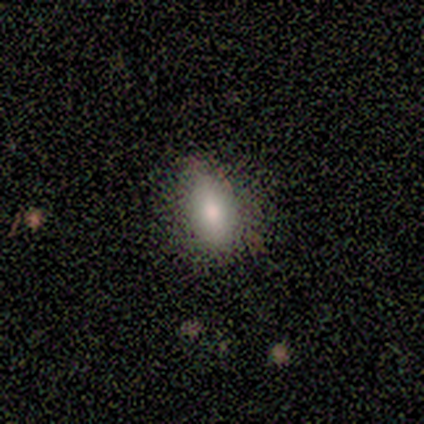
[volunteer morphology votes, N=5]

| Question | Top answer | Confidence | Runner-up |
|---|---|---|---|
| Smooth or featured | smooth | 100% | — |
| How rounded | in between | 100% | — |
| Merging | none | 80% | minor disturbance (20%) |